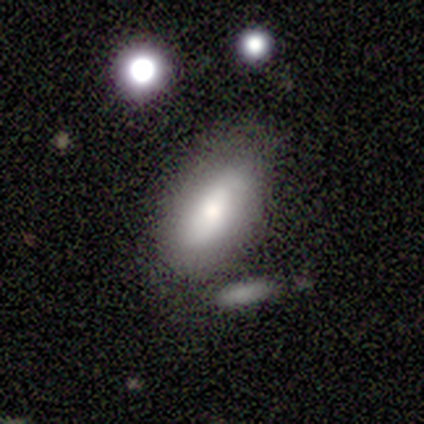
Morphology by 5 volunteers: type=featured or disk (60%); edge-on=no (100%); bar=no (67%); spiral arms=yes (67%); winding=loose (100%); arm count=2 (100%); bulge=large (33%, tied with moderate and small); merging=none (60%).